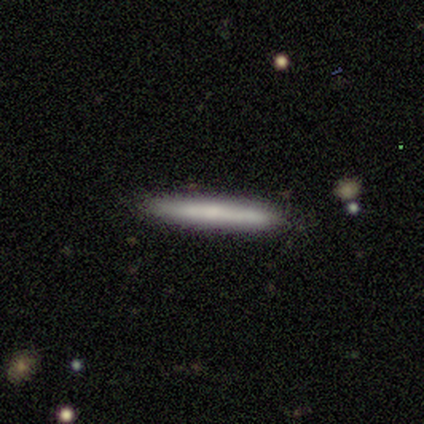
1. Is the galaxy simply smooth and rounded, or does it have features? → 60% smooth, 40% featured or disk, 0% star or artifact.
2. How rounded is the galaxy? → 100% cigar-shaped, 0% round, 0% in between.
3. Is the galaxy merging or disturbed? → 100% none, 0% minor disturbance, 0% major disturbance, 0% merger.